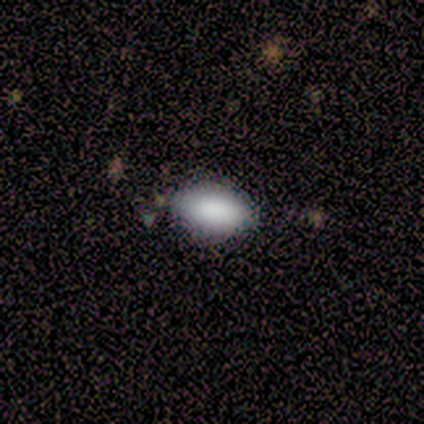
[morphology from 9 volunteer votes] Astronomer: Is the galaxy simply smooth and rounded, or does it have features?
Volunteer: smooth — 89%.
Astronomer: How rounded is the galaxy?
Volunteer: in between — 75%.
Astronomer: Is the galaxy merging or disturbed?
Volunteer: none — 78%.